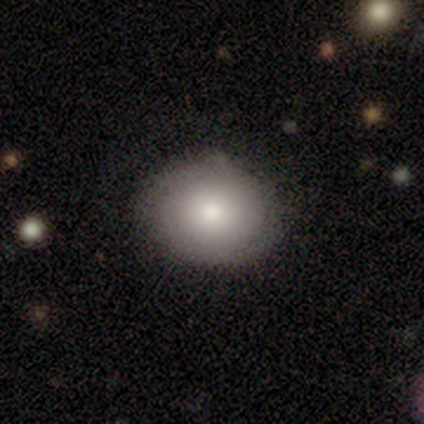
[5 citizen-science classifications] Smooth or featured? 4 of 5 (80%) said smooth. How rounded? 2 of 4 (50%, tied with in between) said round. Merging? 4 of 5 (80%) said none.